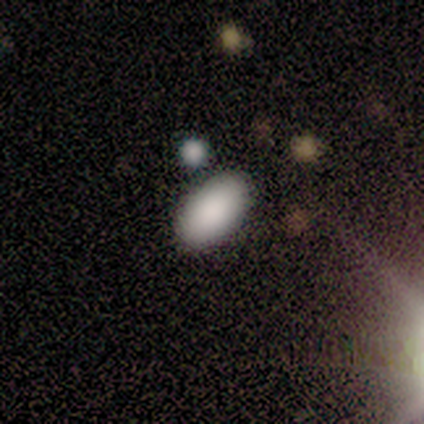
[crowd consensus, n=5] Smooth or featured? smooth (60%)
How rounded? in between (67%)
Merging? none (75%)